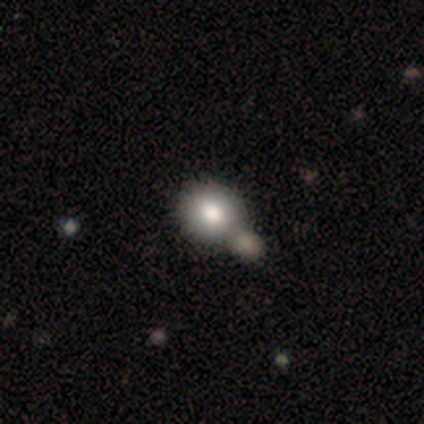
smooth-or-featured: smooth: 70% | featured or disk: 15% | star or artifact: 15%
  how-rounded: round: 79% | in between: 21% | cigar-shaped: 0%
  merging: merger: 41% | none: 35% | major disturbance: 3% | minor disturbance: 0%